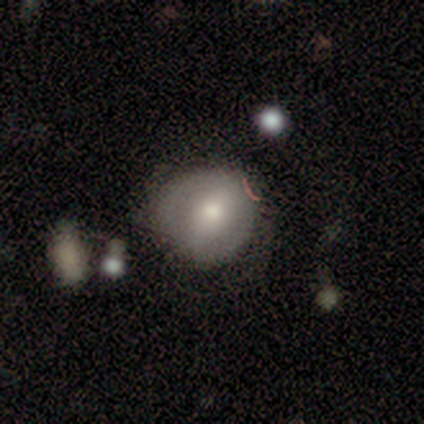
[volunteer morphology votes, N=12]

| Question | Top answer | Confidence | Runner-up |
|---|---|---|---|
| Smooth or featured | smooth | 67% | featured or disk (33%) |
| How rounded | round | 75% | in between (25%) |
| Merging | none | 58% | minor disturbance (42%) |